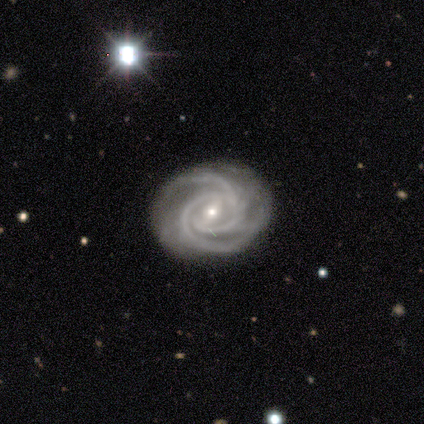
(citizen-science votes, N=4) smooth-or-featured: featured or disk: 100% | smooth: 0% | star or artifact: 0%
  disk-edge-on: no: 75% | yes: 25%
    bar: strong: 33% (tied) | weak: 33% (tied) | no: 33% (tied)
    has-spiral-arms: yes: 100% | no: 0%
      spiral-winding: medium: 67% | tight: 33% | loose: 0%
      spiral-arm-count: 2: 33% (tied) | 3: 33% (tied) | 4: 33% (tied) | 1: 0% | more than 4: 0% | can't tell: 0%
    bulge-size: moderate: 67% | small: 33% | dominant: 0% | large: 0% | none: 0%
  merging: none: 75% | minor disturbance: 25% | major disturbance: 0% | merger: 0%